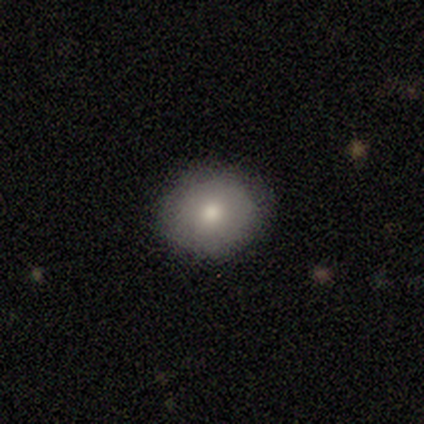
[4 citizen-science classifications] Smooth or featured? 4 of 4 (100%) said smooth. How rounded? 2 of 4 (50%, tied with in between) said round. Merging? 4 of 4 (100%) said none.